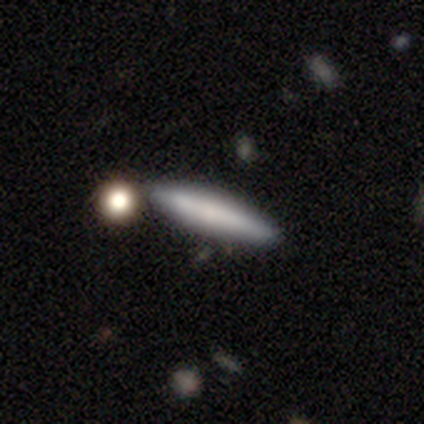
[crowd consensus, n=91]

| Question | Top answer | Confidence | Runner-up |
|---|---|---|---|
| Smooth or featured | smooth | 65% | featured or disk (30%) |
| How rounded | cigar-shaped | 88% | in between (10%) |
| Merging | none | 74% | minor disturbance (13%) |